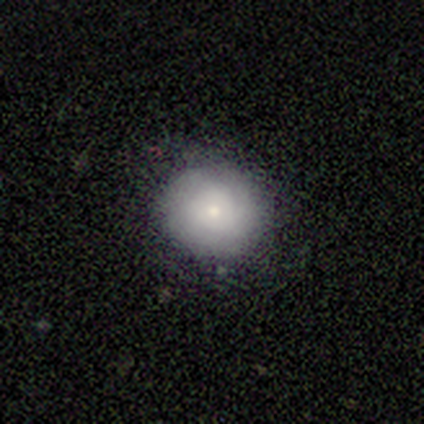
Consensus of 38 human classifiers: Volunteers were most divided on "merging": none: 69%, minor disturbance: 28%, major disturbance: 3%, merger: 0%. More confident: how rounded — round (100%); smooth or featured — smooth (74%).